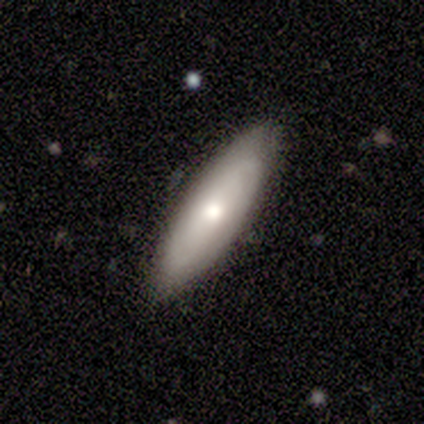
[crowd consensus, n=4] Smooth or featured?
  - featured or disk: 75% *
  - smooth: 25%
  - star or artifact: 0%
Edge-on disk?
  - no: 100% *
  - yes: 0%
Bar?
  - weak: 67% *
  - no: 33%
  - strong: 0%
Spiral arms?
  - no: 67% *
  - yes: 33%
Bulge size?
  - small: 67% *
  - moderate: 33%
  - dominant: 0%
  - large: 0%
  - none: 0%
Merging?
  - none: 75% *
  - merger: 25%
  - minor disturbance: 0%
  - major disturbance: 0%